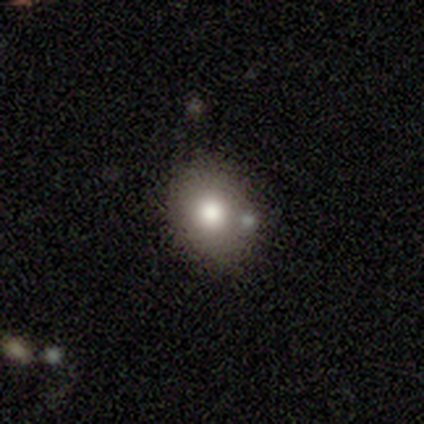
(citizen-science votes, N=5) smooth-or-featured: smooth: 80% | featured or disk: 20% | star or artifact: 0%
  how-rounded: round: 50% (tied) | in between: 50% (tied) | cigar-shaped: 0%
  merging: none: 80% | major disturbance: 20% | minor disturbance: 0% | merger: 0%